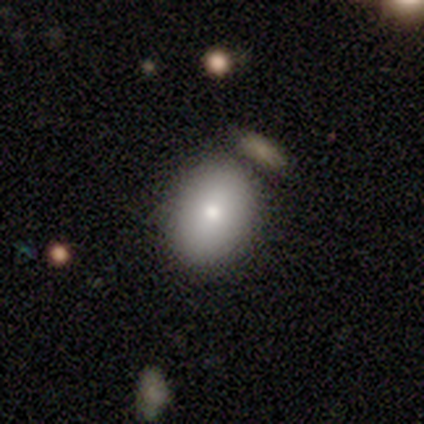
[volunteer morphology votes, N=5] Smooth or featured? 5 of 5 (100%) said smooth. How rounded? 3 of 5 (60%) said in between. Merging? 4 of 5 (80%) said none.